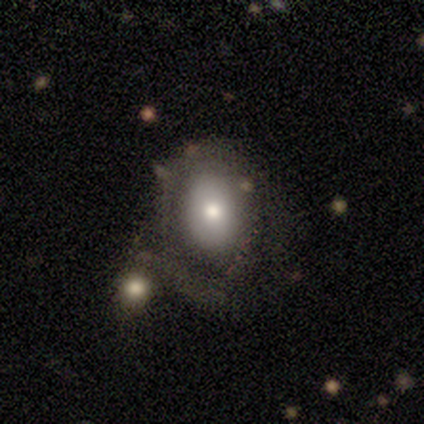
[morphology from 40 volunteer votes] smooth_or_featured: smooth (p=0.60) [alt: featured or disk p=0.38]
how_rounded: in between (p=0.71) [alt: round p=0.29]
merging: none (p=0.28) [alt: merger p=0.26]